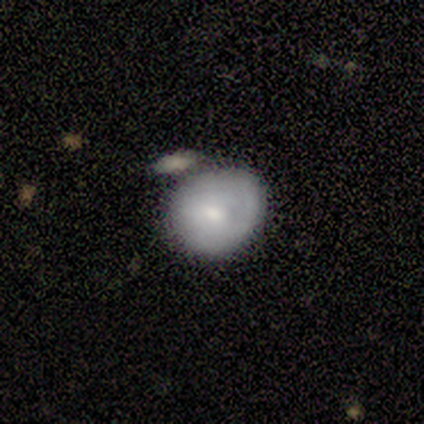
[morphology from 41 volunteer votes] smooth-or-featured: smooth: 54% | featured or disk: 46% | star or artifact: 0%
  how-rounded: round: 64% | in between: 36% | cigar-shaped: 0%
  merging: merger: 34% | minor disturbance: 27% | none: 22% | major disturbance: 2%